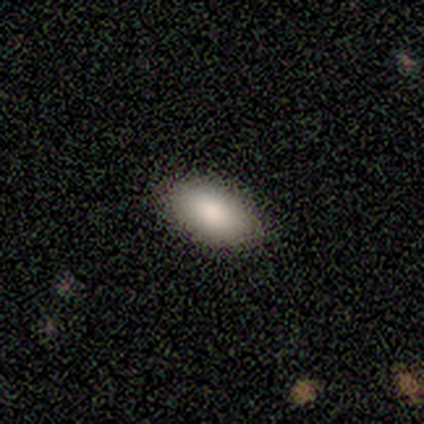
Morphology: type=smooth (100%); roundness=in between (75%); merging=none (100%).